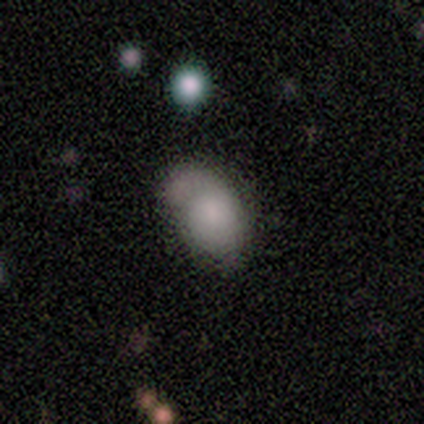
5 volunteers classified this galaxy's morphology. A smooth galaxy with no disk features (100%) that is in between round and cigar-shaped (80%).

Vote fractions:
- Smooth or featured? smooth: 100% / featured or disk: 0% / star or artifact: 0%
- How rounded? in between: 80% / round: 20% / cigar-shaped: 0%
- Merging? minor disturbance: 40% (tied) / major disturbance: 40% (tied) / merger: 20% / none: 0%